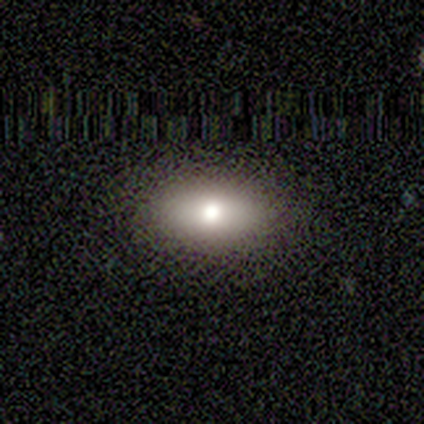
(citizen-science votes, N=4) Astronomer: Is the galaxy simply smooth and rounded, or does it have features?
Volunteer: smooth — 100%.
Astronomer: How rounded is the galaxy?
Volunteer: in between — 100%.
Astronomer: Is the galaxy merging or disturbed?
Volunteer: none — 100%.